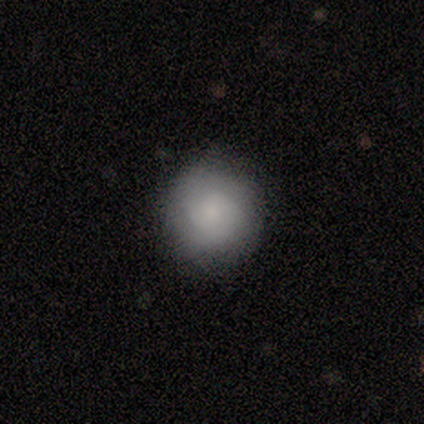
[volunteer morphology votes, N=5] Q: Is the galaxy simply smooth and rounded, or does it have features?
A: smooth — 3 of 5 (60%).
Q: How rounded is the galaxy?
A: round — 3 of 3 (100%).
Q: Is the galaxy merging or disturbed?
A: none — 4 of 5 (80%).